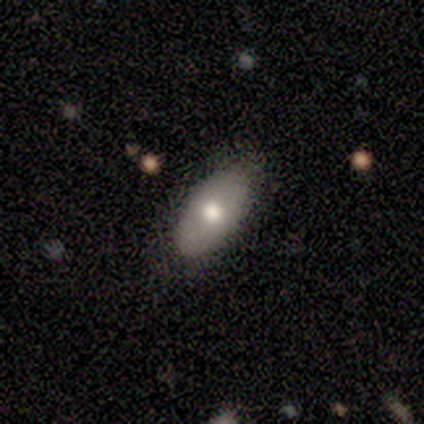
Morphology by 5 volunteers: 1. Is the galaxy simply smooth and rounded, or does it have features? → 40% smooth (tied), 40% featured or disk (tied), 20% star or artifact.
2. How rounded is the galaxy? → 100% in between, 0% round, 0% cigar-shaped.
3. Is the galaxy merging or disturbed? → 75% none, 25% minor disturbance, 0% major disturbance, 0% merger.